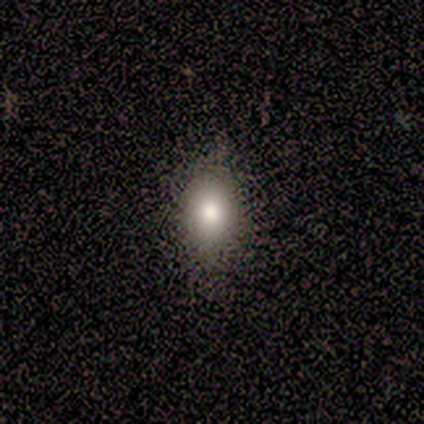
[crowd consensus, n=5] Q: Smooth or featured?
A: smooth (60%); runner-up: star or artifact (40%)
Q: How rounded?
A: in between (100%)
Q: Merging?
A: none (100%)